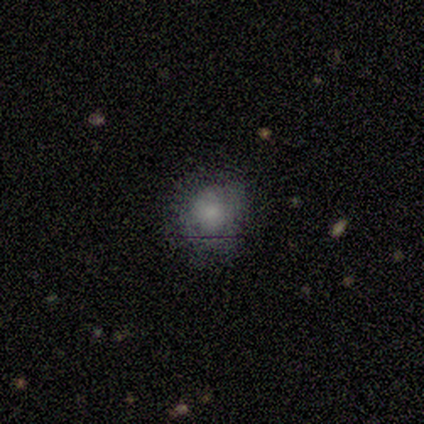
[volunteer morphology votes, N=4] smooth_or_featured: smooth (p=0.75) [alt: star or artifact p=0.25]
how_rounded: round (p=1.00)
merging: minor disturbance (p=0.67) [alt: none p=0.33]